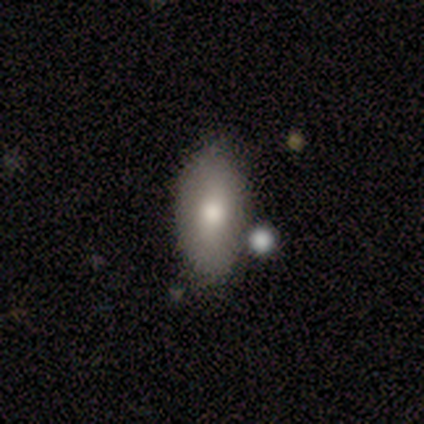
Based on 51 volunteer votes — Smooth or featured: smooth — 76% (star or artifact — 14%)
How rounded: in between — 87% (cigar-shaped — 10%)
Merging: none — 77% (minor disturbance — 9%)